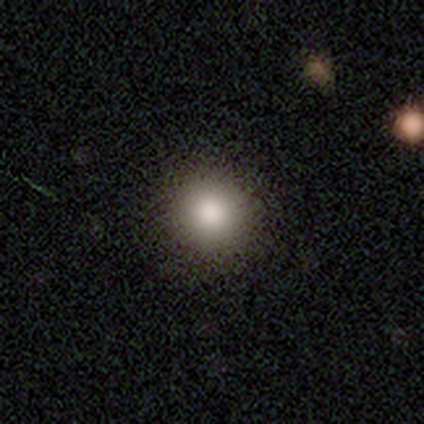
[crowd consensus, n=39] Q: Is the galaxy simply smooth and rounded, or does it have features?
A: smooth — 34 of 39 (87%).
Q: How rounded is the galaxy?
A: round — 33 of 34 (97%).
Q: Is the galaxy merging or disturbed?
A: none — 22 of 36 (61%).